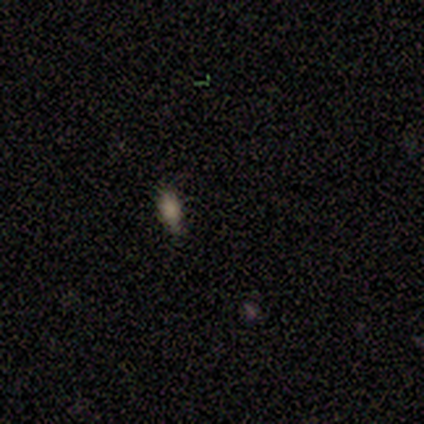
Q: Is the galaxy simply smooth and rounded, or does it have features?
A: smooth — 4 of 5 (80%).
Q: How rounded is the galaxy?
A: in between — 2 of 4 (50%, tied with cigar-shaped).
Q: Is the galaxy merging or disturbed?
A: none — 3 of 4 (75%).